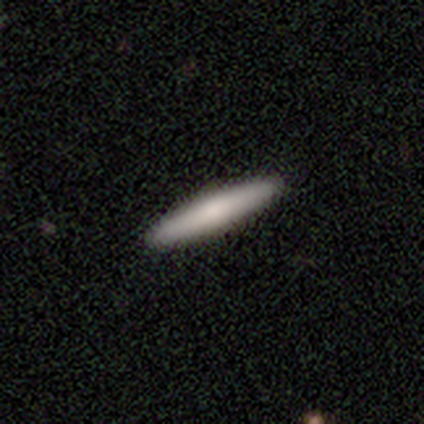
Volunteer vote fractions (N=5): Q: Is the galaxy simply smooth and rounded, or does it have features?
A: smooth — 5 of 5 (100%).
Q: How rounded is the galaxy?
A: cigar-shaped — 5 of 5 (100%).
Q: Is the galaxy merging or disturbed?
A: none — 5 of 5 (100%).